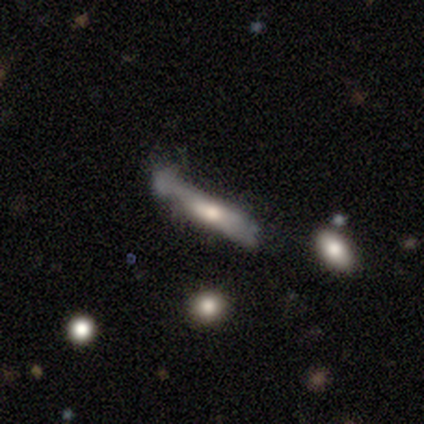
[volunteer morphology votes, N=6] Smooth or featured? 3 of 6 (50%) said smooth. How rounded? 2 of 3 (67%) said cigar-shaped. Merging? 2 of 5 (40%) said minor disturbance.